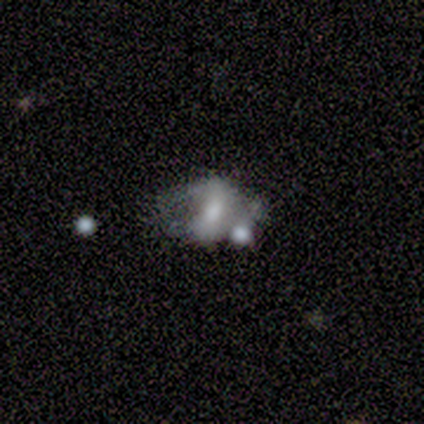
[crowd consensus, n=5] smooth_or_featured: smooth (p=0.80) [alt: featured or disk p=0.20]
how_rounded: round (p=0.50) [tied with: in between p=0.50]
merging: major disturbance (p=0.60) [alt: minor disturbance p=0.40]